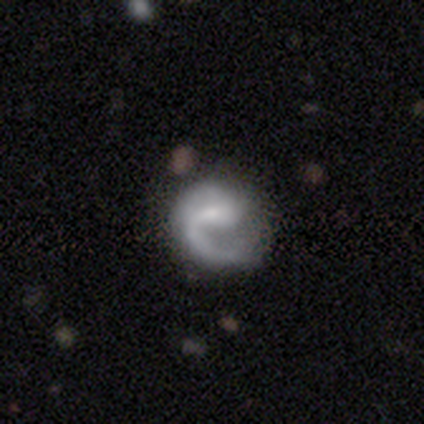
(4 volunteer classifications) Smooth or featured: featured or disk — 75% (smooth — 25%)
Edge-on disk: no — 100%
Bar: no — 67% (weak — 33%)
Spiral arms: yes — 100%
Spiral winding: loose — 67% (medium — 33%)
Spiral arm count: 1 — 67% (2 — 33%)
Bulge size: small — 100%
Merging: none — 75% (minor disturbance — 25%)